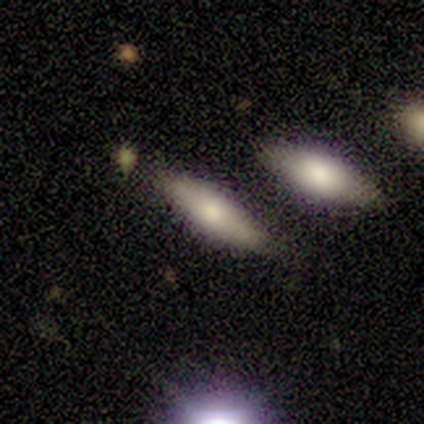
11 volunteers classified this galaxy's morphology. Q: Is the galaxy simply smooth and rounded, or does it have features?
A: smooth — 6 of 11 (55%).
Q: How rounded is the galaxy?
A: in between — 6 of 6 (100%).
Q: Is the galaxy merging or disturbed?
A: none — 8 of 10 (80%).